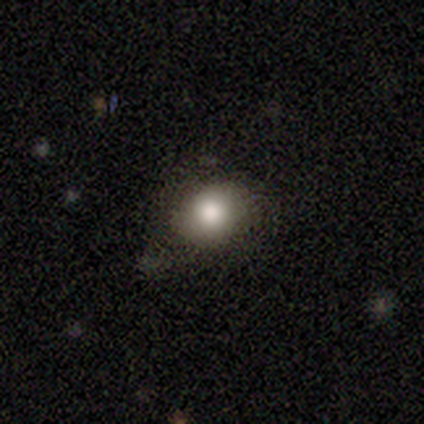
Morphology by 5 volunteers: smooth 100%, featured or disk 0%, star or artifact 0%. Down the decision tree: how rounded — in between (60%); merging — none (80%).